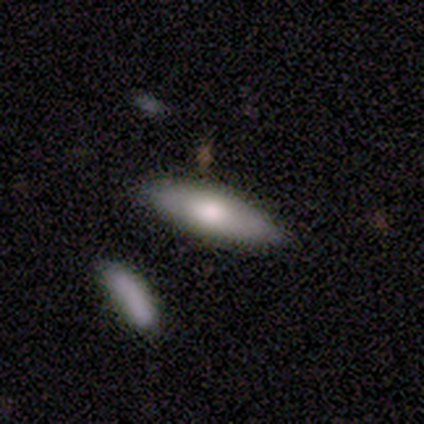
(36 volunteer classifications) This is clearly a smooth galaxy (81%). How rounded: likely cigar-shaped (62%). Merging: clearly none (83%).